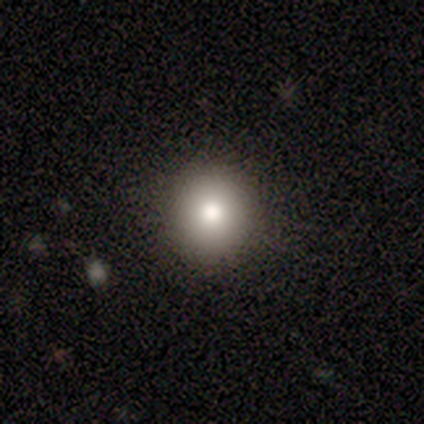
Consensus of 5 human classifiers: smooth-or-featured: smooth: 80% | featured or disk: 20% | star or artifact: 0%
  how-rounded: round: 100% | in between: 0% | cigar-shaped: 0%
  merging: none: 80% | minor disturbance: 20% | major disturbance: 0% | merger: 0%